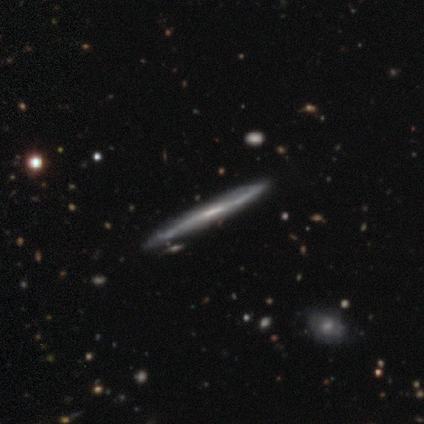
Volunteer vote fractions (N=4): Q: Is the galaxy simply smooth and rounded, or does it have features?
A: featured or disk — 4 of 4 (100%).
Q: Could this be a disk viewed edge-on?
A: yes — 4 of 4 (100%).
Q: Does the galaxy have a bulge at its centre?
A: none — 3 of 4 (75%).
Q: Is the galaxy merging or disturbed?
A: none — 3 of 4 (75%).